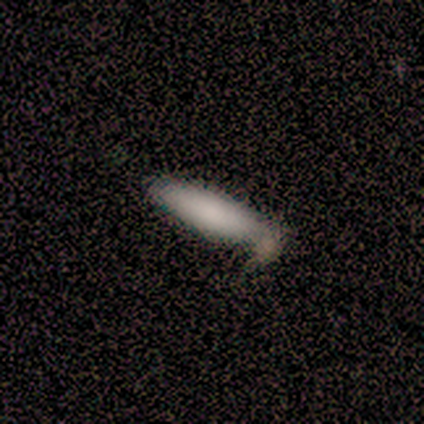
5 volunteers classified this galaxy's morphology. A smooth galaxy with no disk features (100%) that is cigar-shaped (60%).

Vote fractions:
- Smooth or featured? smooth: 100% / featured or disk: 0% / star or artifact: 0%
- How rounded? cigar-shaped: 60% / in between: 40% / round: 0%
- Merging? minor disturbance: 60% / none: 40% / major disturbance: 0% / merger: 0%